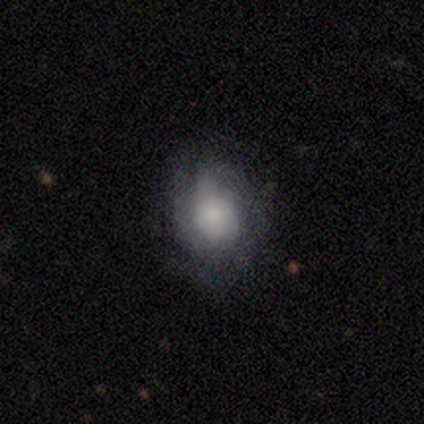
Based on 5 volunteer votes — Smooth or featured?
  - featured or disk: 60% *
  - smooth: 40%
  - star or artifact: 0%
Edge-on disk?
  - no: 100% *
  - yes: 0%
Bar?
  - no: 100% *
  - strong: 0%
  - weak: 0%
Spiral arms?
  - no: 67% *
  - yes: 33%
Bulge size?
  - small: 100% *
  - dominant: 0%
  - large: 0%
  - moderate: 0%
  - none: 0%
Merging?
  - minor disturbance: 40% * (tied)
  - major disturbance: 40% * (tied)
  - none: 20%
  - merger: 0%